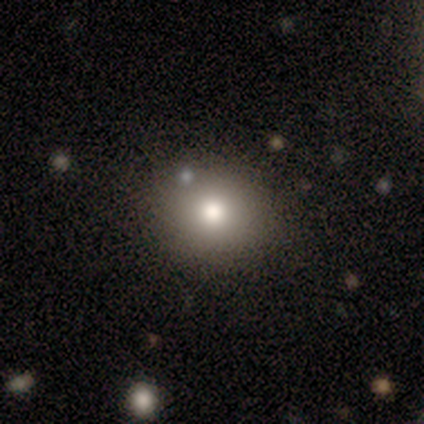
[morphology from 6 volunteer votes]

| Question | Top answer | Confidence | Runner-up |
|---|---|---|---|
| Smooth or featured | smooth | 83% | star or artifact (17%) |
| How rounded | round | 80% | in between (20%) |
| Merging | none | 100% | — |